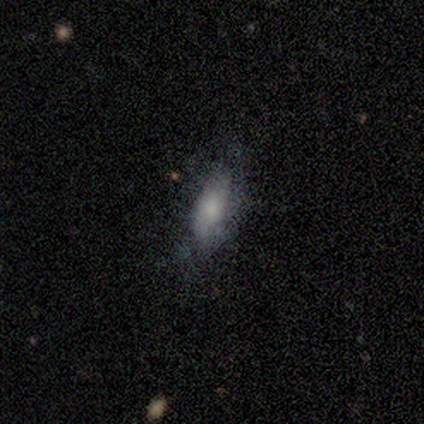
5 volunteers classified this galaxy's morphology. A smooth galaxy with no disk features (80%) that is in between round and cigar-shaped (100%).

Vote fractions:
- Smooth or featured? smooth: 80% / featured or disk: 20% / star or artifact: 0%
- How rounded? in between: 100% / round: 0% / cigar-shaped: 0%
- Merging? none: 80% / major disturbance: 20% / minor disturbance: 0% / merger: 0%